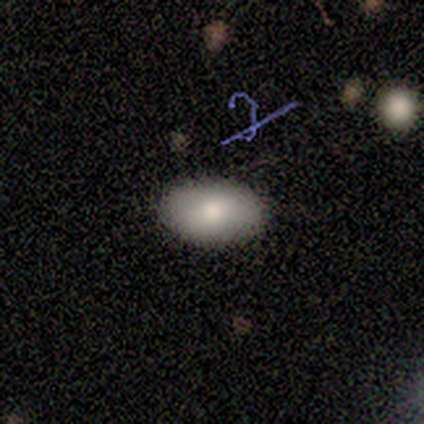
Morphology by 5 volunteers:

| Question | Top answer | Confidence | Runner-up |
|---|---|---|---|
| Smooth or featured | smooth | 100% | — |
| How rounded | in between | 100% | — |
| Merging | none | 100% | — |